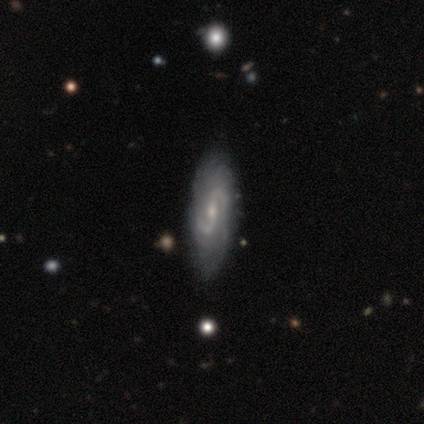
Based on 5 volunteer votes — Overall: featured or disk (60%; smooth 20%). Edge-on disk: no (100%). Bar: strong (33%, tied with weak and no). Spiral arms: yes (100%). Spiral arm count: 2 (100%). Spiral winding: medium (100%). Bulge size: moderate (67%; small 33%). Merging: none (75%).